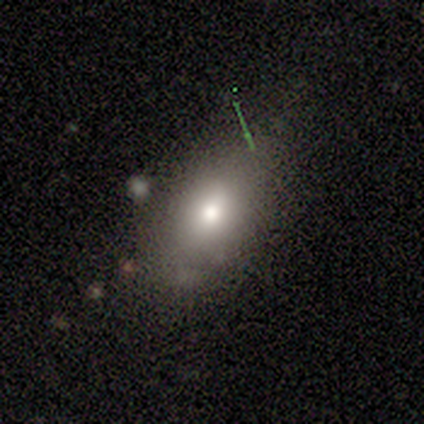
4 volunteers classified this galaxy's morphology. This is likely a smooth galaxy (75%). How rounded: likely in between (67%). Merging: likely none (67%).